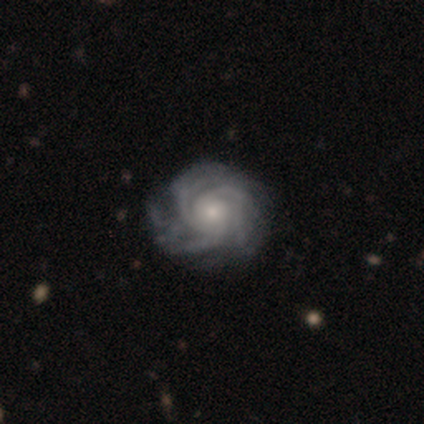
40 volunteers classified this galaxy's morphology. Q: Smooth or featured?
A: featured or disk (100%)
Q: Edge-on disk?
A: no (100%)
Q: Bar?
A: no (90%); runner-up: weak (8%)
Q: Spiral arms?
A: yes (100%)
Q: Spiral winding?
A: tight (70%); runner-up: medium (28%)
Q: Spiral arm count?
A: 3 (30%); runner-up: can't tell (25%)
Q: Bulge size?
A: small (50%); runner-up: moderate (42%)
Q: Merging?
A: none (50%); runner-up: major disturbance (18%)